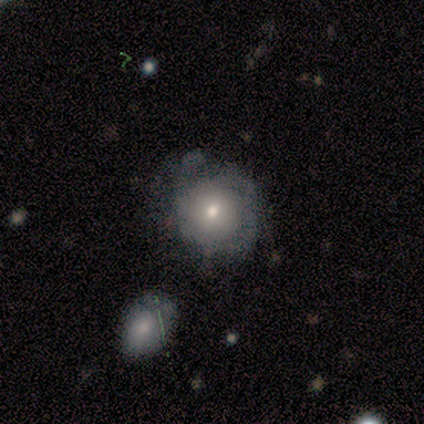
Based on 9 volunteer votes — Smooth or featured? smooth (67%)
How rounded? round (83%)
Merging? minor disturbance (43%)